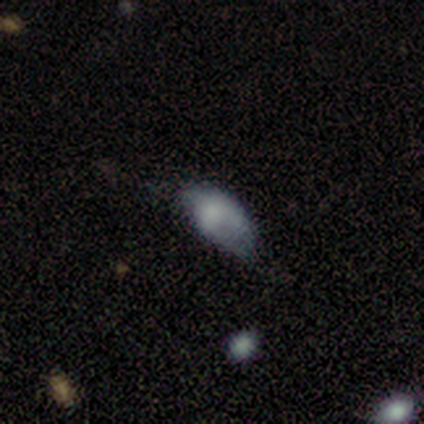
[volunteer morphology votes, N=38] This appears to be a smooth galaxy with no disk features (71%) that is in between round and cigar-shaped (96%). Merging: minor disturbance (43%).